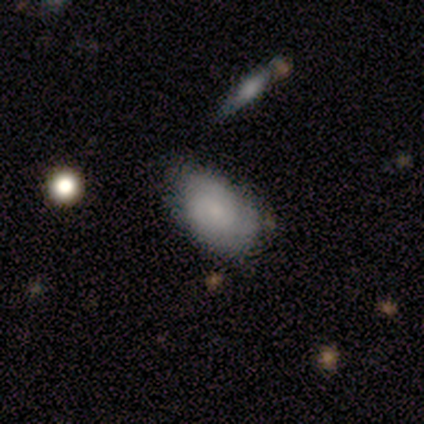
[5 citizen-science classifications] This appears to be a smooth galaxy with no disk features (80%) that is in between round and cigar-shaped (100%). Merging: none (60%).